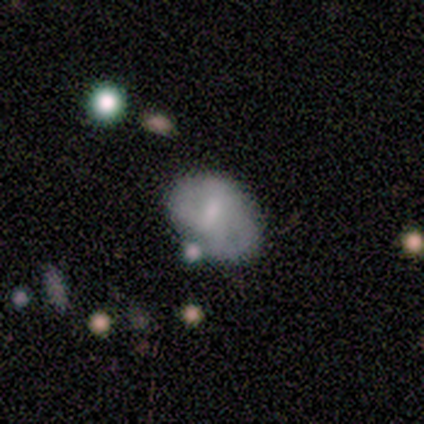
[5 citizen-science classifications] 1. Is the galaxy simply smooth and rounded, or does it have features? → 60% smooth, 40% featured or disk, 0% star or artifact.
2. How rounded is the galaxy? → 100% in between, 0% round, 0% cigar-shaped.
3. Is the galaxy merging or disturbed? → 80% minor disturbance, 20% none, 0% major disturbance, 0% merger.